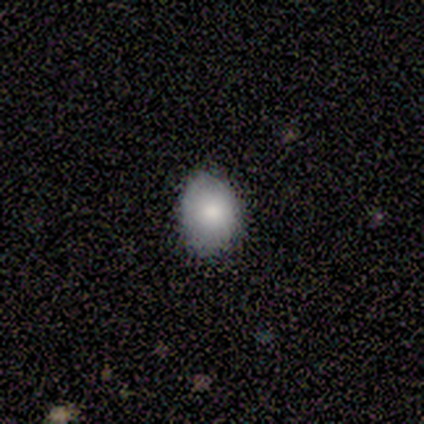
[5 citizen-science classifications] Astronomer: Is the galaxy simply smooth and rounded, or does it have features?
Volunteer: smooth — 60% (runner-up: featured or disk, 40%).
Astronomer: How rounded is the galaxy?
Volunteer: in between — 67%.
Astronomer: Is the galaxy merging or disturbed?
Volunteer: none — 100%.